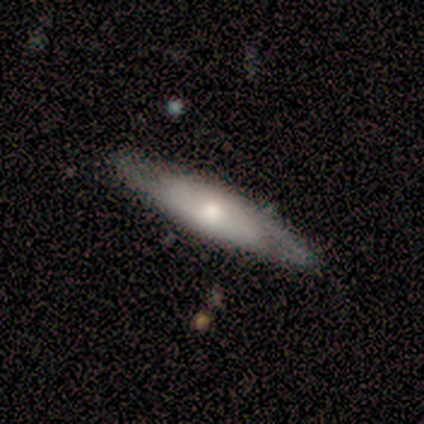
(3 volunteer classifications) featured or disk 67%, smooth 33%, star or artifact 0%. Down the decision tree: edge-on disk — yes (100%); edge-on bulge — rounded (100%); merging — none (67%).